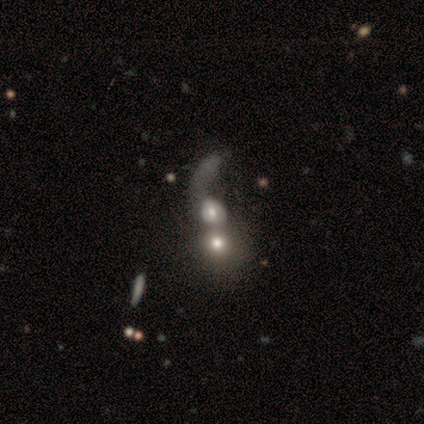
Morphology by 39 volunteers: Q: Smooth or featured?
A: smooth (51%); runner-up: featured or disk (36%)
Q: How rounded?
A: round (60%); runner-up: in between (40%)
Q: Merging?
A: merger (76%); runner-up: major disturbance (15%)